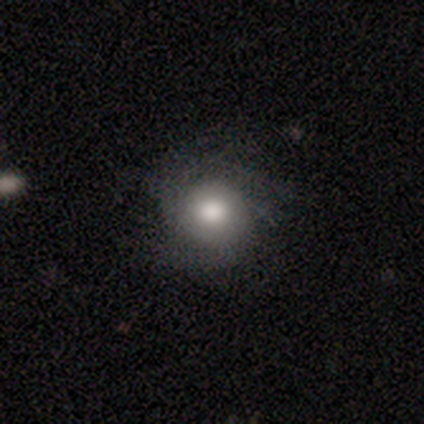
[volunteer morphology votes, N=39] smooth-or-featured: smooth: 62% | featured or disk: 33% | star or artifact: 5%
  how-rounded: round: 88% | in between: 12% | cigar-shaped: 0%
  merging: none: 65% | minor disturbance: 11% | major disturbance: 11% | merger: 0%